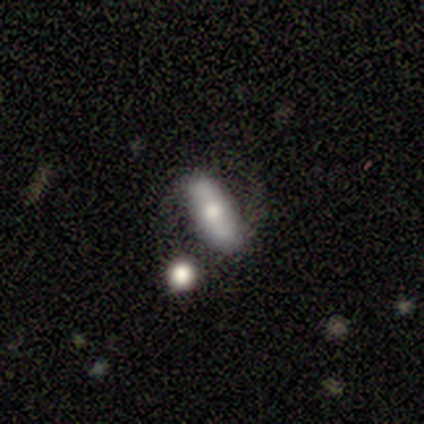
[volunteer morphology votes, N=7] Smooth or featured? smooth (71%)
How rounded? in between (60%)
Merging? none (86%)